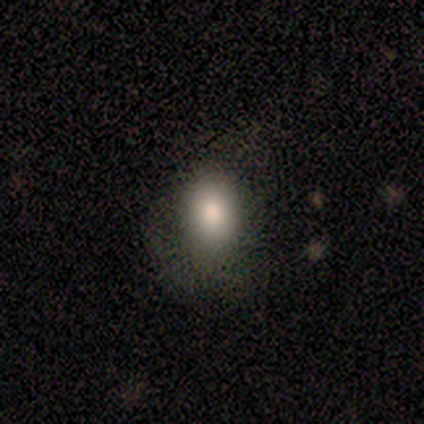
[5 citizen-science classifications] smooth-or-featured: smooth: 60% | featured or disk: 20% | star or artifact: 20%
  how-rounded: in between: 100% | round: 0% | cigar-shaped: 0%
  merging: none: 75% | major disturbance: 25% | minor disturbance: 0% | merger: 0%